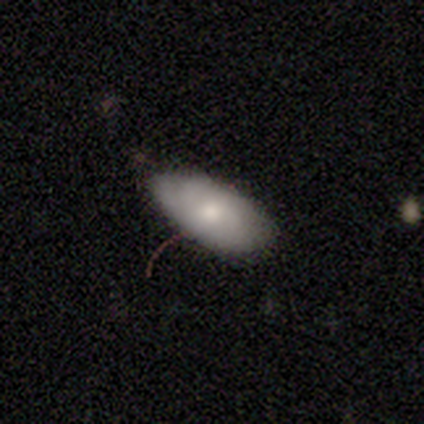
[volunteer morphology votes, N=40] A smooth galaxy with no disk features (60%) that is in between round and cigar-shaped (83%).

Vote fractions:
- Smooth or featured? smooth: 60% / featured or disk: 35% / star or artifact: 5%
- How rounded? in between: 83% / round: 12% / cigar-shaped: 4%
- Merging? none: 61% / minor disturbance: 29% / major disturbance: 8% / merger: 3%